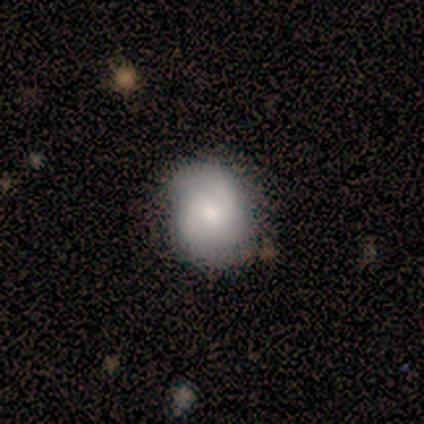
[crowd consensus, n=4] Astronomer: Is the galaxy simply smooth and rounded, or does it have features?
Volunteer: featured or disk — 75%.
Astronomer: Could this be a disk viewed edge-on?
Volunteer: no — 67%.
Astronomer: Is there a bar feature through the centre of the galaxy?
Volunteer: weak — 50%, tied with no at 50%.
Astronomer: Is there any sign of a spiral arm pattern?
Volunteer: yes — 100%.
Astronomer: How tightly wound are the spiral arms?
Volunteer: medium — 100%.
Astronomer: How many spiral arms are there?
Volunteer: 2 — 100%.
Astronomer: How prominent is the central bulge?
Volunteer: moderate — 50%, tied with small at 50%.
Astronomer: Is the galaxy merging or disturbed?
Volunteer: none — 33%, tied with major disturbance and merger at 33%.